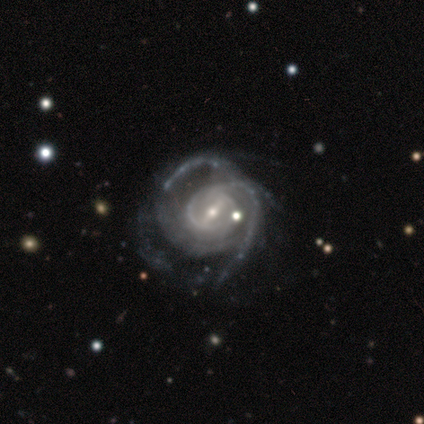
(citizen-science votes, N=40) Morphology: type=featured or disk (88%); edge-on=no (100%); bar=weak (49%); spiral arms=yes (94%); winding=medium (39%); arm count=2 (42%); bulge=small (74%); merging=none (37%, tied with major disturbance).